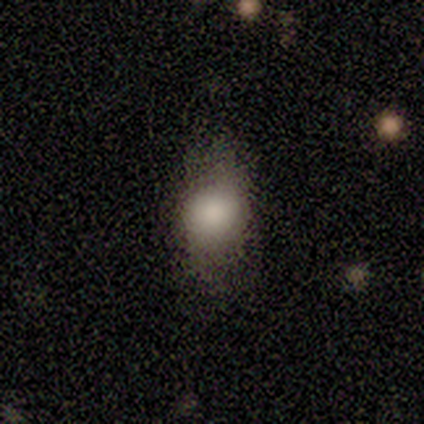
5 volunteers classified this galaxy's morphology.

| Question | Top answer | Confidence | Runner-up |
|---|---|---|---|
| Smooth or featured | smooth | 80% | featured or disk (20%) |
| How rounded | in between | 75% | round (25%) |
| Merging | none | 60% | minor disturbance (40%) |